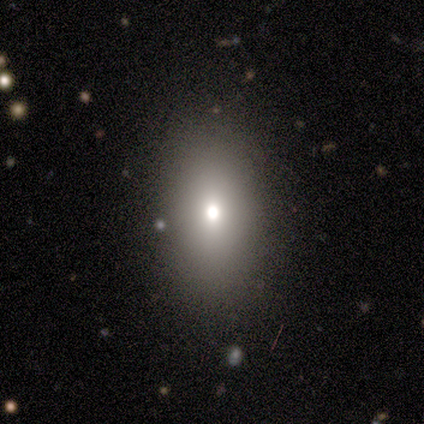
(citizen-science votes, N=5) A smooth galaxy with no disk features (40%, tied with featured or disk) that is in between round and cigar-shaped (50%, tied with cigar-shaped).

Vote fractions:
- Smooth or featured? smooth: 40% (tied) / featured or disk: 40% (tied) / star or artifact: 20%
- How rounded? in between: 50% (tied) / cigar-shaped: 50% (tied) / round: 0%
- Merging? none: 50% / major disturbance: 25% / merger: 25% / minor disturbance: 0%